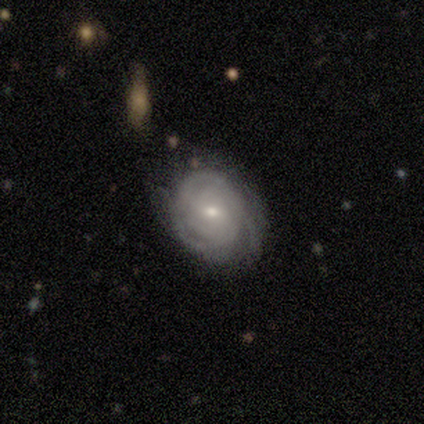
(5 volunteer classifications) smooth_or_featured: featured or disk (p=1.00)
disk_edge_on: no (p=1.00)
bar: no (p=0.80) [alt: weak p=0.20]
has_spiral_arms: yes (p=1.00)
spiral_winding: tight (p=1.00)
spiral_arm_count: 2 (p=0.40) [tied with: 3 p=0.40]
bulge_size: small (p=0.80) [alt: none p=0.20]
merging: none (p=0.60) [alt: minor disturbance p=0.40]